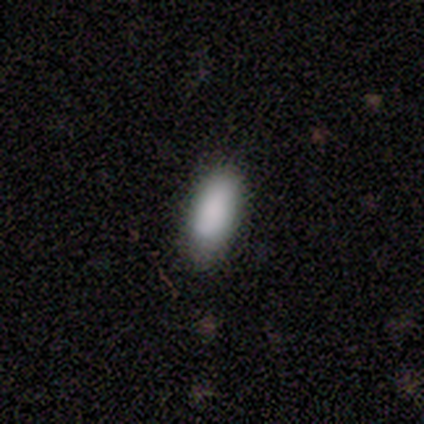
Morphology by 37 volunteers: A smooth galaxy with no disk features (92%) that is in between round and cigar-shaped (76%).

Vote fractions:
- Smooth or featured? smooth: 92% / featured or disk: 5% / star or artifact: 3%
- How rounded? in between: 76% / cigar-shaped: 21% / round: 3%
- Merging? none: 67% / minor disturbance: 31% / major disturbance: 3% / merger: 0%